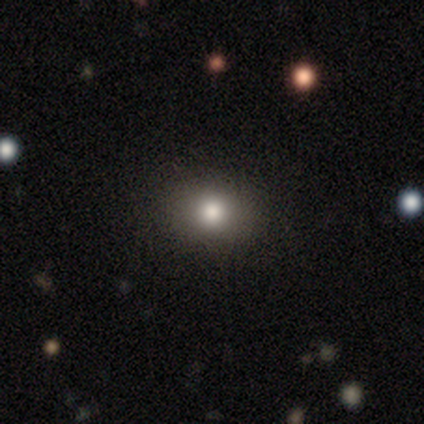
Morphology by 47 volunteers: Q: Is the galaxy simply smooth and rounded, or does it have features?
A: smooth — 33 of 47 (70%).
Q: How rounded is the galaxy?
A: round — 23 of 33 (70%).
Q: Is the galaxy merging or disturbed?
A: none — 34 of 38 (89%).